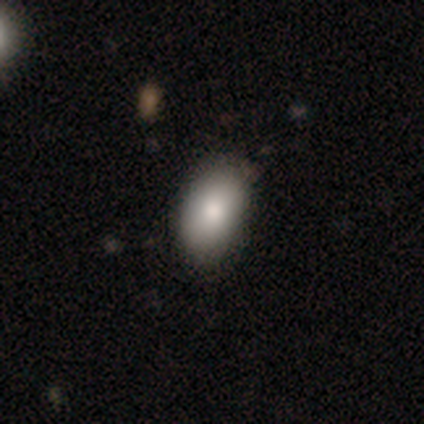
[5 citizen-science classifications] Smooth or featured?
  - smooth: 80% *
  - featured or disk: 20%
  - star or artifact: 0%
How rounded?
  - in between: 100% *
  - round: 0%
  - cigar-shaped: 0%
Merging?
  - none: 80% *
  - minor disturbance: 20%
  - major disturbance: 0%
  - merger: 0%